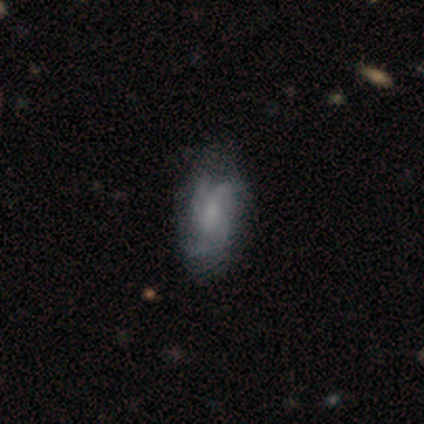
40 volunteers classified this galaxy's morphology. This appears to be a featured or disk galaxy (70%) with no bar (54%), 3 (43%) medium (48%) spiral arms (81%) and a small central bulge (62%). Merging: none (68%).